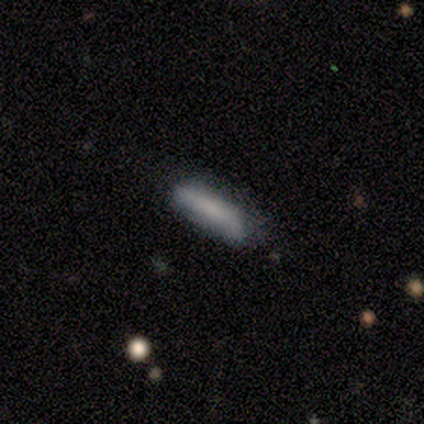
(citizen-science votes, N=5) smooth 100%, featured or disk 0%, star or artifact 0%. Down the decision tree: how rounded — cigar-shaped (60%); merging — none (100%).